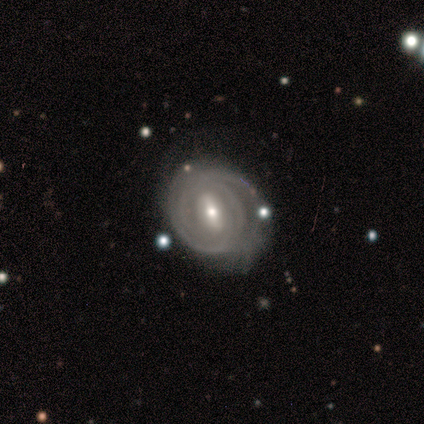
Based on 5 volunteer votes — smooth_or_featured: featured or disk (p=1.00)
disk_edge_on: no (p=0.80) [alt: yes p=0.20]
bar: weak (p=1.00)
has_spiral_arms: yes (p=1.00)
spiral_winding: tight (p=1.00)
spiral_arm_count: can't tell (p=0.50) [alt: 2 p=0.25]
bulge_size: moderate (p=0.50) [tied with: small p=0.50]
merging: none (p=0.60) [alt: minor disturbance p=0.20]